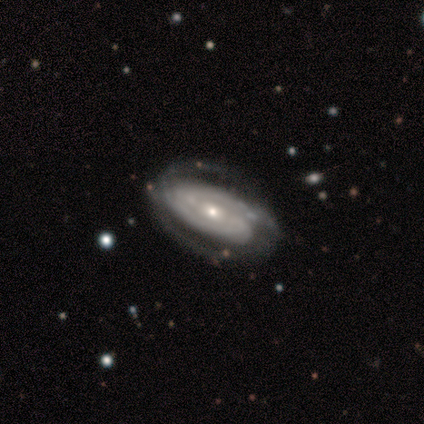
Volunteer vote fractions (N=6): smooth-or-featured: featured or disk: 100% | smooth: 0% | star or artifact: 0%
  disk-edge-on: no: 100% | yes: 0%
    bar: weak: 50% (tied) | no: 50% (tied) | strong: 0%
    has-spiral-arms: yes: 83% | no: 17%
      spiral-winding: tight: 100% | medium: 0% | loose: 0%
      spiral-arm-count: 2: 80% | 3: 20% | 1: 0% | 4: 0% | more than 4: 0% | can't tell: 0%
    bulge-size: small: 83% | moderate: 17% | dominant: 0% | large: 0% | none: 0%
  merging: none: 67% | minor disturbance: 17% | major disturbance: 17% | merger: 0%